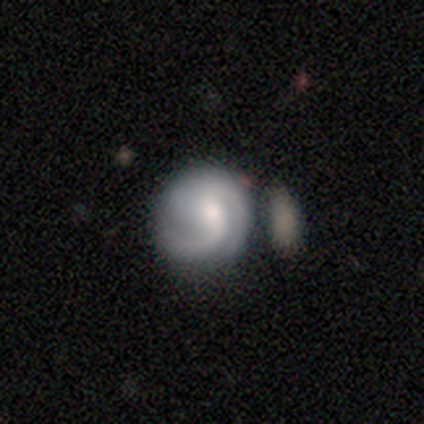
featured or disk 100%, smooth 0%, star or artifact 0%. Down the decision tree: edge-on disk — no (100%); bar — no (67%); spiral arms — yes (100%); spiral arm count — 2 (67%); spiral winding — medium (100%); bulge size — moderate (100%); merging — minor disturbance (67%).